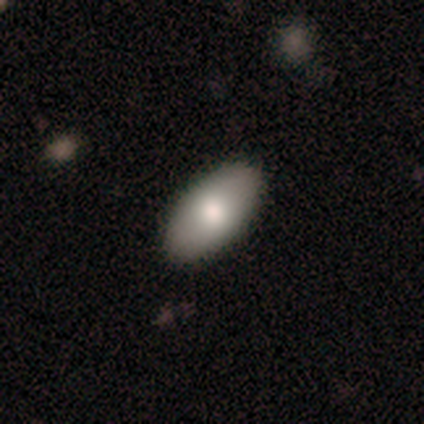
smooth_or_featured: smooth (p=0.80) [alt: featured or disk p=0.20]
how_rounded: in between (p=1.00)
merging: none (p=1.00)